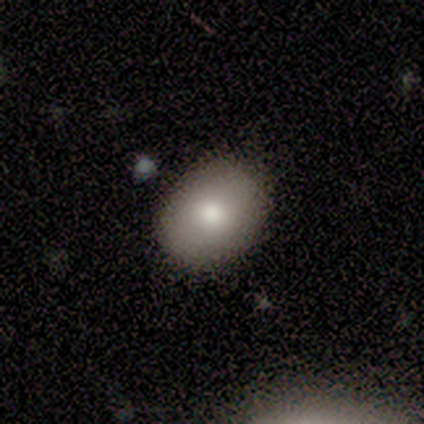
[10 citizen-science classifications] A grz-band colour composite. It shows a smooth galaxy with no disk features (90%) that is in between round and cigar-shaped (56%). Merging: none (100%).